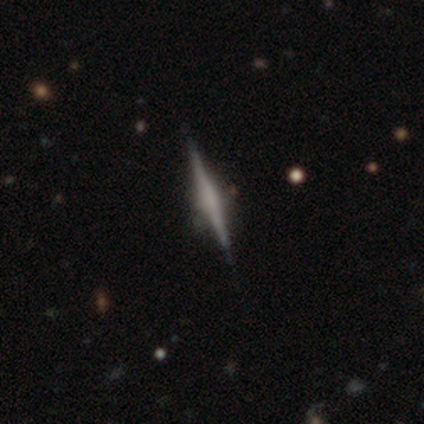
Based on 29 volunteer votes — Smooth or featured? featured or disk (76%)
Edge-on disk? yes (95%)
Edge-on bulge? none (48%)
Merging? none (85%)